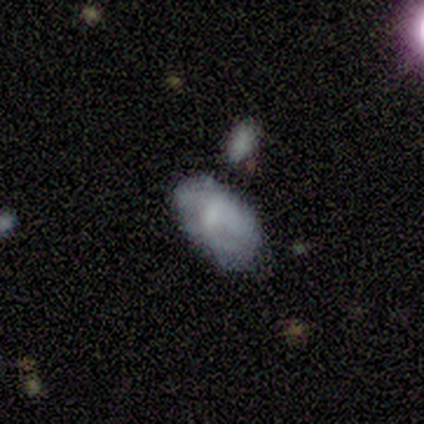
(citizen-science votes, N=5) A smooth galaxy with no disk features (60%) that is in between round and cigar-shaped (100%). Merging: none (40%, tied with minor disturbance).